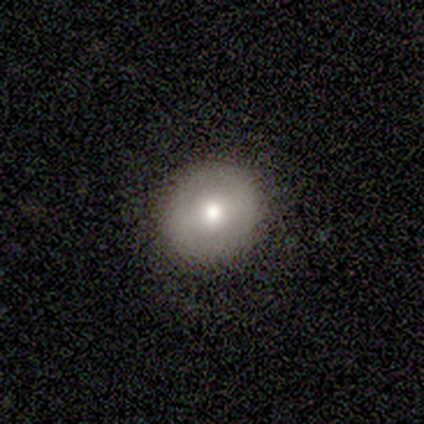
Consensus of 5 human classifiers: Q: Smooth or featured?
A: smooth (100%)
Q: How rounded?
A: round (100%)
Q: Merging?
A: none (100%)